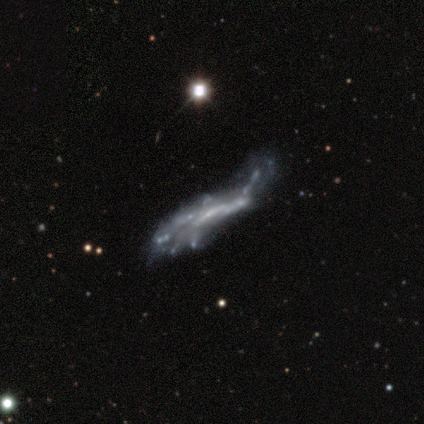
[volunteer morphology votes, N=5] A featured or disk galaxy (80%) with a weak bar (50%, tied with no), no spiral arms (100%) and a small central bulge (50%, tied with none).

Vote fractions:
- Smooth or featured? featured or disk: 80% / star or artifact: 20% / smooth: 0%
- Edge-on disk? no: 100% / yes: 0%
- Bar? weak: 50% (tied) / no: 50% (tied) / strong: 0%
- Spiral arms? no: 100% / yes: 0%
- Bulge size? small: 50% (tied) / none: 50% (tied) / dominant: 0% / large: 0% / moderate: 0%
- Merging? major disturbance: 50% (tied) / merger: 50% (tied) / none: 0% / minor disturbance: 0%